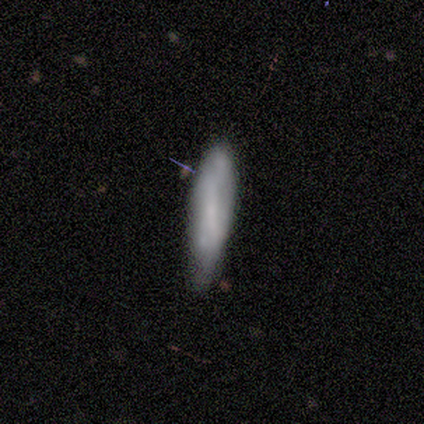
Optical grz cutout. It shows a smooth galaxy with no disk features (100%) that is cigar-shaped (80%). Merging: none (80%).